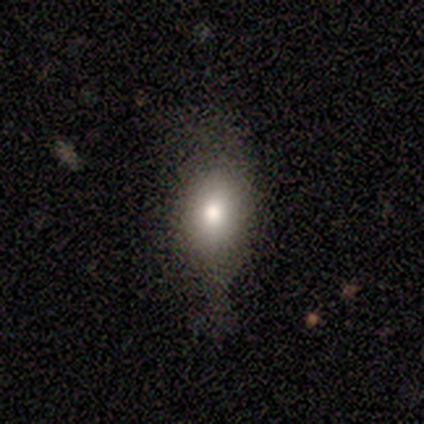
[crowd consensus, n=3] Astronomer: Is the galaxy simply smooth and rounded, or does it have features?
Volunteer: smooth — 67%.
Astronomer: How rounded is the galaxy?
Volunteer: in between — 100%.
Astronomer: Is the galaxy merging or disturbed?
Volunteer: major disturbance — 100%.